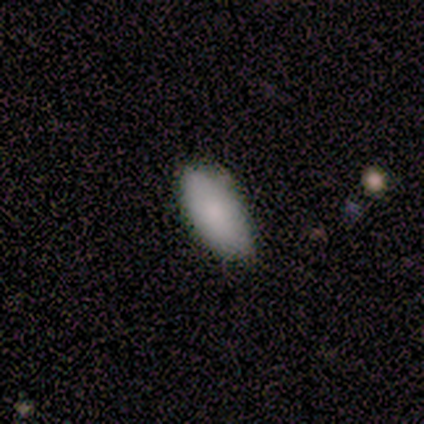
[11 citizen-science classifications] Smooth or featured: smooth — 100%
How rounded: in between — 91% (cigar-shaped — 9%)
Merging: none — 91% (minor disturbance — 9%)